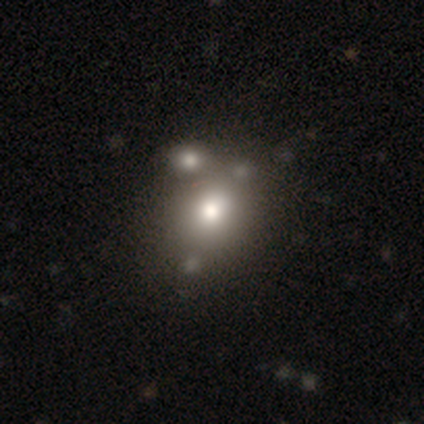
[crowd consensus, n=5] smooth 80%, star or artifact 20%, featured or disk 0%. Down the decision tree: how rounded — round (50%, tied with in between); merging — none (75%).